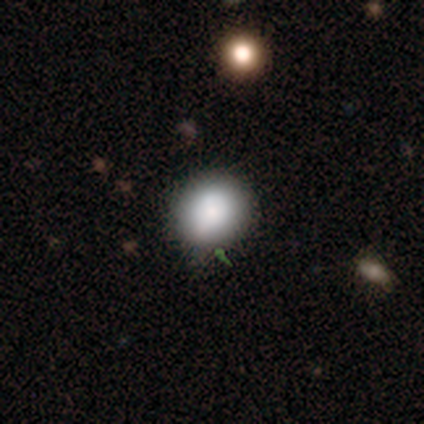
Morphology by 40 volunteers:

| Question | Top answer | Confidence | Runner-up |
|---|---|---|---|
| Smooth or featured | smooth | 80% | star or artifact (20%) |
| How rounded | round | 88% | in between (12%) |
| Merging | none | 94% | minor disturbance (3%) |